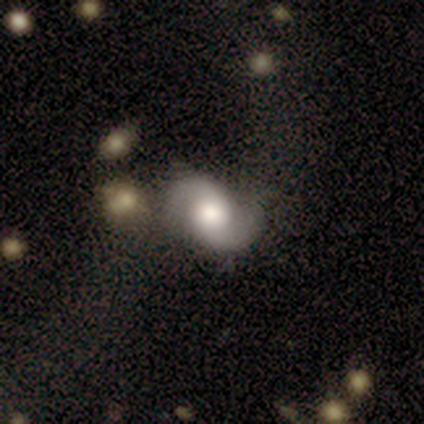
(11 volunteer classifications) smooth-or-featured: featured or disk: 82% | smooth: 9% | star or artifact: 9%
  disk-edge-on: no: 100% | yes: 0%
    bar: no: 89% | strong: 11% | weak: 0%
    has-spiral-arms: yes: 100% | no: 0%
      spiral-winding: loose: 67% | medium: 22% | tight: 11%
      spiral-arm-count: 2: 100% | 1: 0% | 3: 0% | 4: 0% | more than 4: 0% | can't tell: 0%
    bulge-size: large: 89% | moderate: 11% | dominant: 0% | small: 0% | none: 0%
  merging: none: 70% | merger: 20% | minor disturbance: 10% | major disturbance: 0%